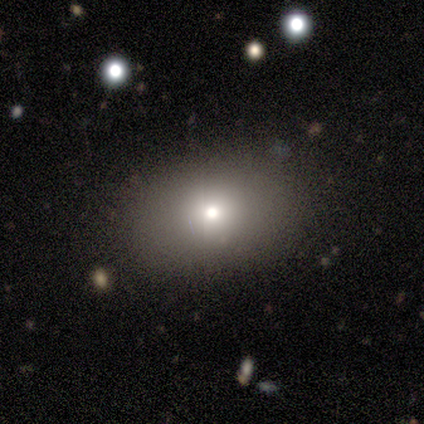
This appears to be a smooth galaxy with no disk features (60%) that is in between round and cigar-shaped (67%). Merging: none (80%).